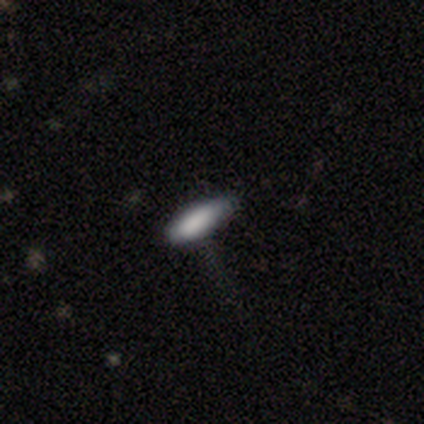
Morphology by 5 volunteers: A smooth galaxy with no disk features (100%) that is cigar-shaped (60%).

Vote fractions:
- Smooth or featured? smooth: 100% / featured or disk: 0% / star or artifact: 0%
- How rounded? cigar-shaped: 60% / in between: 40% / round: 0%
- Merging? minor disturbance: 60% / none: 40% / major disturbance: 0% / merger: 0%